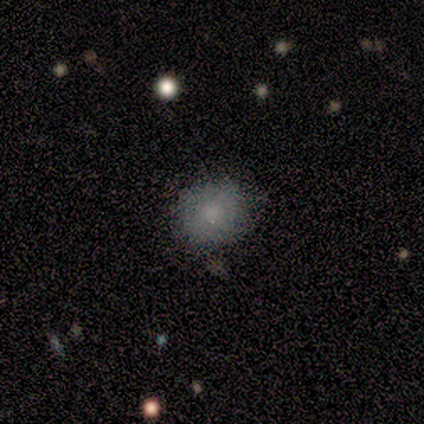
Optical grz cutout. It shows a smooth galaxy with no disk features (80%) that is round (100%). Merging: none (100%).